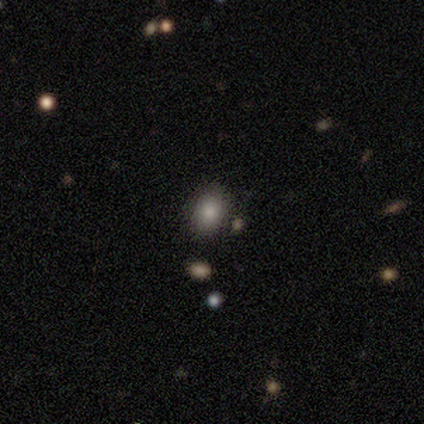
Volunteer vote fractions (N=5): Q: Smooth or featured?
A: smooth (80%); runner-up: star or artifact (20%)
Q: How rounded?
A: round (50%); tied with: in between (50%)
Q: Merging?
A: none (75%); runner-up: minor disturbance (25%)